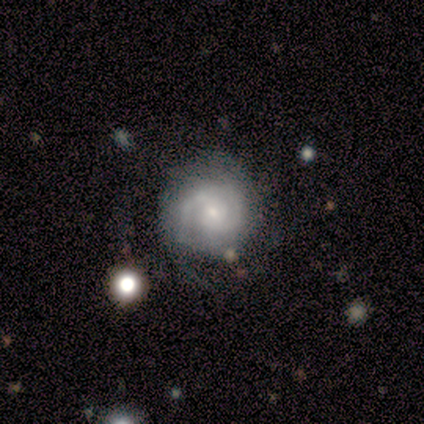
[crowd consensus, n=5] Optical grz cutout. It shows a featured or disk galaxy (80%) with a weak bar (50%, tied with no), 2 (75%) tight (50%) spiral arms (100%) and a small central bulge (75%). Merging: none (50%, tied with merger).